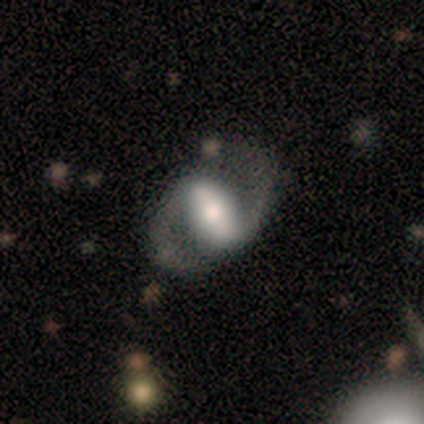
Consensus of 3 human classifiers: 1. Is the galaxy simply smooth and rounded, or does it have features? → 67% featured or disk, 33% smooth, 0% star or artifact.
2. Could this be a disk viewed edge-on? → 100% no, 0% yes.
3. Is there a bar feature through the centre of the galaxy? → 50% strong (tied), 50% weak (tied), 0% no.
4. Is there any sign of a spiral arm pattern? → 100% yes, 0% no.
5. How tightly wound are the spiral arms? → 100% medium, 0% tight, 0% loose.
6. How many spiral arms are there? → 100% 2, 0% 1, 0% 3, 0% 4, 0% more than 4, 0% can't tell.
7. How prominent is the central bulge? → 100% moderate, 0% dominant, 0% large, 0% small, 0% none.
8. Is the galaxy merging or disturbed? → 67% none, 33% minor disturbance, 0% major disturbance, 0% merger.